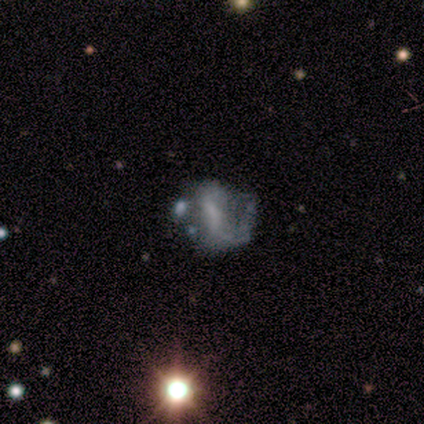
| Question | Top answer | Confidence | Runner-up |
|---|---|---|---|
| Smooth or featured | smooth | 40% | tied: featured or disk (40%) |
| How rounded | round | 50% | tied: in between (50%) |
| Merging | none | 50% | minor disturbance (25%) |